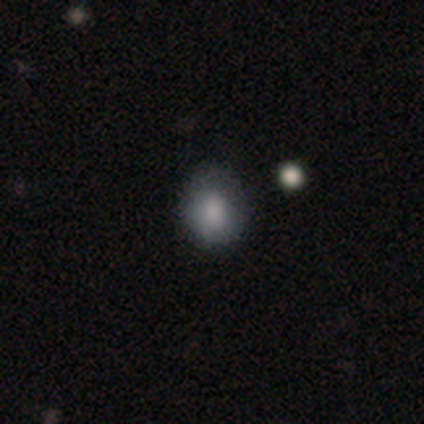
This is clearly a smooth galaxy (80%). How rounded: likely round (75%). Merging: likely minor disturbance (60%).